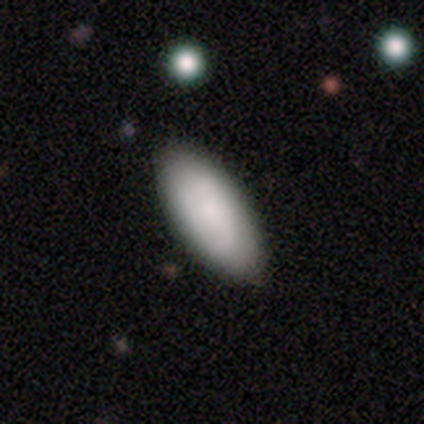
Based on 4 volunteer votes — Volunteers were most divided on "smooth or featured" (2-way tie): smooth: 50%, featured or disk: 50%, star or artifact: 0%. More confident: how rounded — in between (100%); merging — none (75%).